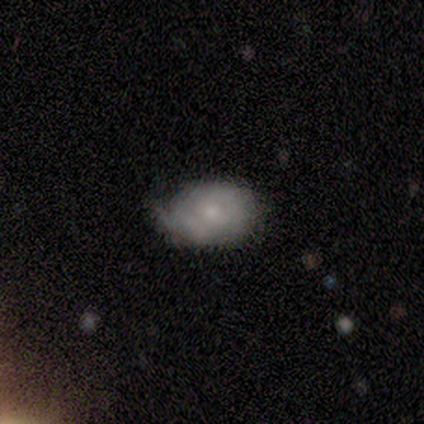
Smooth or featured: smooth — 50% (featured or disk — 38%)
How rounded: in between — 75% (round — 25%)
Merging: none — 43% (tied with minor disturbance — 43%)